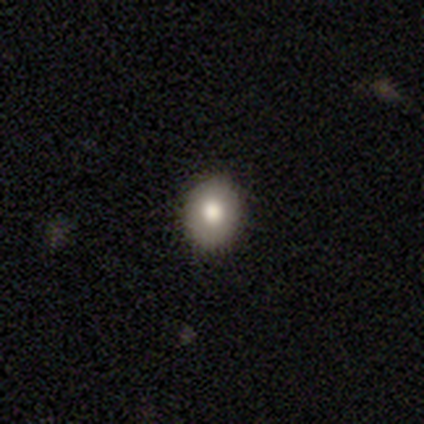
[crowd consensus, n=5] Smooth or featured: smooth — 80% (featured or disk — 20%)
How rounded: in between — 75% (round — 25%)
Merging: none — 100%